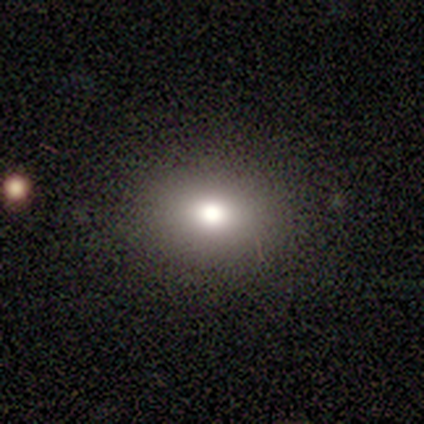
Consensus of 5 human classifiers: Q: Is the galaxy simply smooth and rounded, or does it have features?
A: smooth — 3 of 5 (60%).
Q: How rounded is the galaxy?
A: round — 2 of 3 (67%).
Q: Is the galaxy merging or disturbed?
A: none — 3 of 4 (75%).